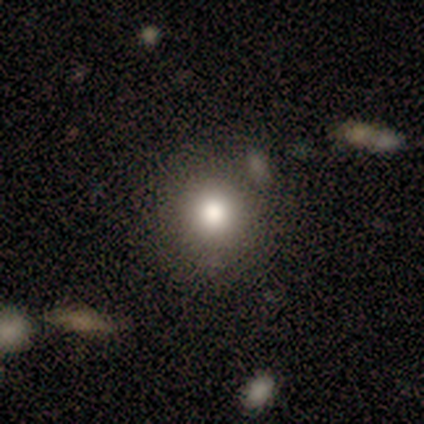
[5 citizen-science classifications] smooth 60%, star or artifact 40%, featured or disk 0%. Down the decision tree: how rounded — round (100%); merging — none (67%).